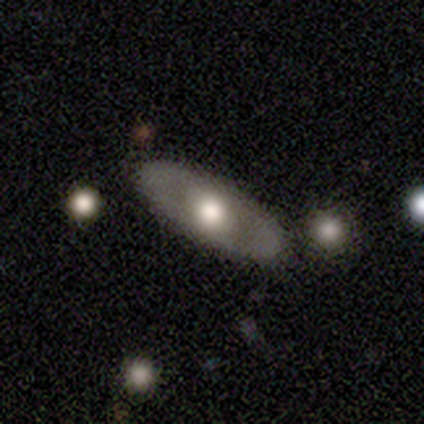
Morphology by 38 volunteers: Volunteers were most divided on "bulge size": moderate: 57%, large: 39%, dominant: 4%, small: 0%, none: 0%. More confident: bar — no (100%); spiral arms — no (87%); smooth or featured — featured or disk (79%); edge-on disk — no (77%); merging — none (71%).